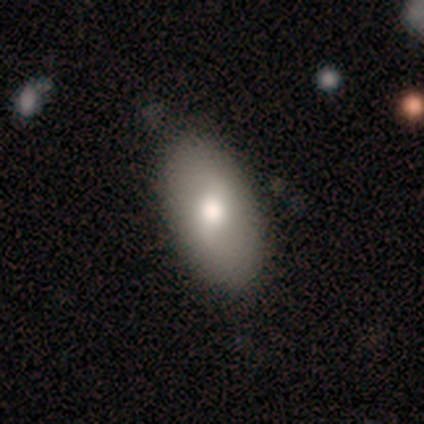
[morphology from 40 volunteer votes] smooth 60%, featured or disk 28%, star or artifact 12%. Down the decision tree: how rounded — in between (100%); merging — none (83%).